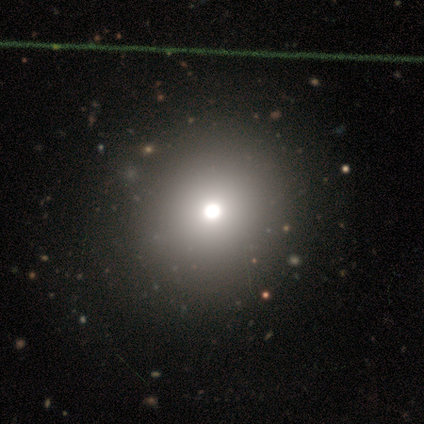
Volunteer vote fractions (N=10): Q: Smooth or featured?
A: smooth (70%); runner-up: featured or disk (20%)
Q: How rounded?
A: round (100%)
Q: Merging?
A: none (100%)